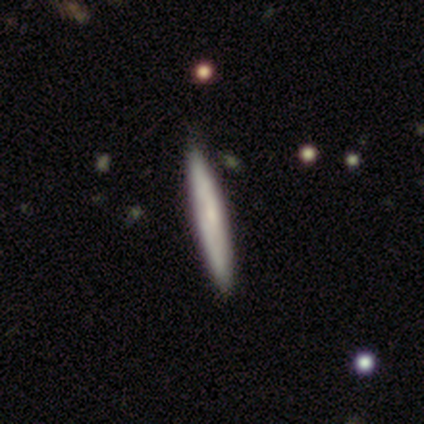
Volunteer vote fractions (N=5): A smooth galaxy with no disk features (100%) that is cigar-shaped (100%). Merging: none (100%).